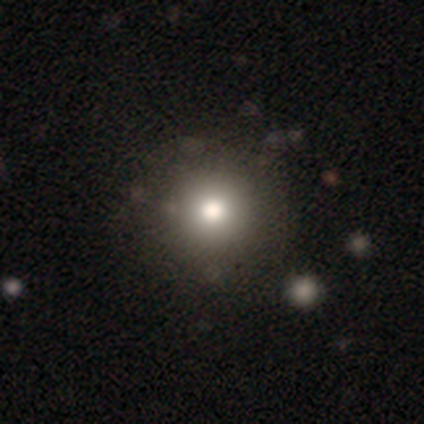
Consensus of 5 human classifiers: Smooth or featured? smooth (80%)
How rounded? round (100%)
Merging? none (100%)